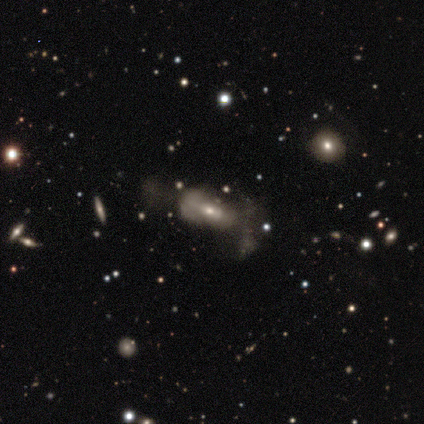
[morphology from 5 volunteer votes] This is marginally a smooth galaxy (40%, tied with featured or disk). How rounded: possibly in between (50%, tied with cigar-shaped). Merging: clearly major disturbance (100%).